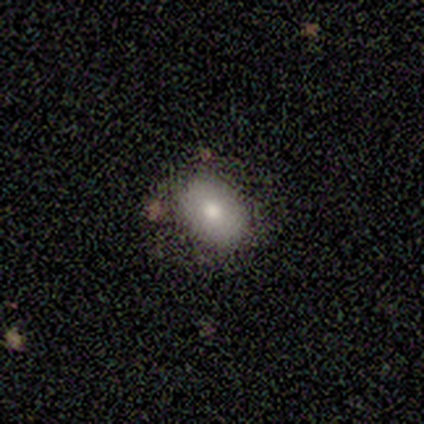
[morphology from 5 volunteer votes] smooth-or-featured: smooth: 100% | featured or disk: 0% | star or artifact: 0%
  how-rounded: in between: 100% | round: 0% | cigar-shaped: 0%
  merging: none: 80% | major disturbance: 20% | minor disturbance: 0% | merger: 0%